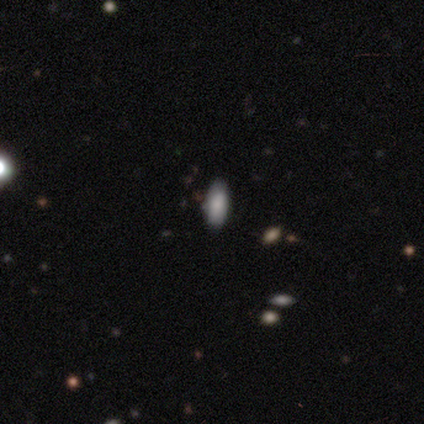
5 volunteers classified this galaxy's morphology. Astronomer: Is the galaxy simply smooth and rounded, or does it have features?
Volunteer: smooth — 40%, tied with star or artifact at 40%.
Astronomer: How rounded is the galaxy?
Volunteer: in between — 100%.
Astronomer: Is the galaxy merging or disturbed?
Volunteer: minor disturbance — 67%.